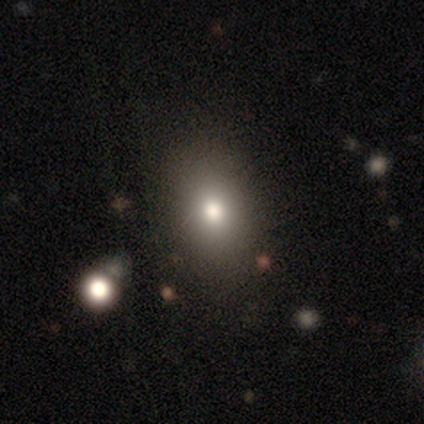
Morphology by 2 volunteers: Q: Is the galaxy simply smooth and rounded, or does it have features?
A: smooth — 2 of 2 (100%).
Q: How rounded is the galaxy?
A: in between — 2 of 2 (100%).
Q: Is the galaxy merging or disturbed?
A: none — 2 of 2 (100%).